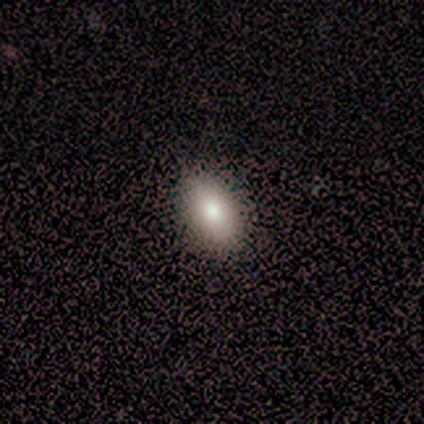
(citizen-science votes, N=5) This appears to be a smooth galaxy with no disk features (80%) that is in between round and cigar-shaped (100%). Merging: none (100%).